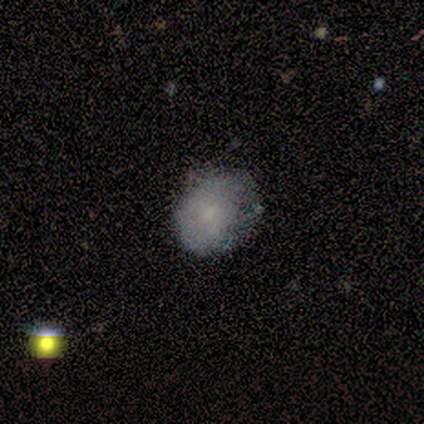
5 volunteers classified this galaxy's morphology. Q: Smooth or featured?
A: smooth (80%); runner-up: featured or disk (20%)
Q: How rounded?
A: in between (75%); runner-up: round (25%)
Q: Merging?
A: minor disturbance (80%); runner-up: none (20%)